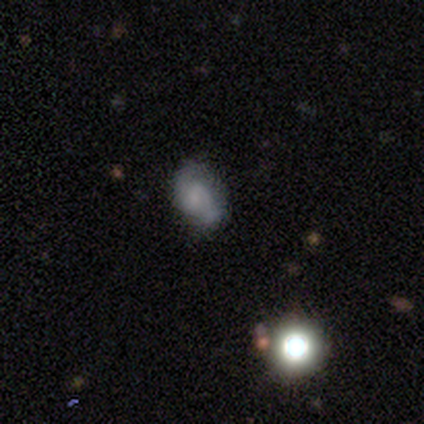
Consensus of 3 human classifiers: This is likely a featured or disk galaxy (67%). It is clearly not viewed edge-on (100%). Bar: possibly weak (50%, tied with no). Spiral arm pattern: clearly yes (100%). Spiral arm count: clearly 2 (100%). Spiral winding: possibly medium (50%, tied with loose). Central bulge: possibly moderate (50%, tied with none). Merging: clearly none (100%).